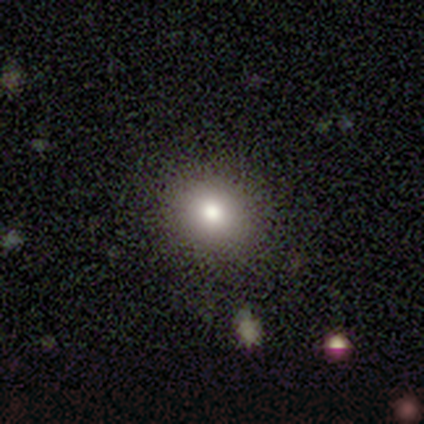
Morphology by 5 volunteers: Smooth or featured?
  - smooth: 80% *
  - star or artifact: 20%
  - featured or disk: 0%
How rounded?
  - round: 75% *
  - in between: 25%
  - cigar-shaped: 0%
Merging?
  - none: 75% *
  - minor disturbance: 25%
  - major disturbance: 0%
  - merger: 0%